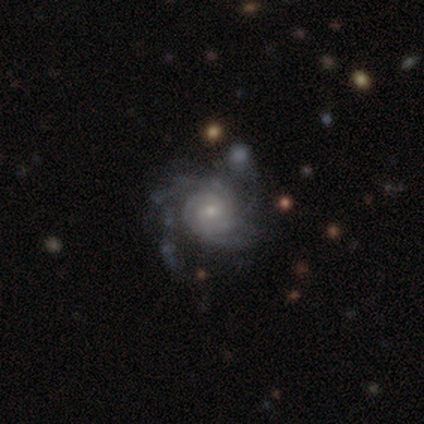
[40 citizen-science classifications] Smooth or featured? 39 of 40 (98%) said featured or disk. Edge-on disk? 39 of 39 (100%) said no. Bar? 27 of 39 (69%) said no. Spiral arms? 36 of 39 (92%) said yes. Spiral winding? 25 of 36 (69%) said tight. Spiral arm count? 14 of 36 (39%) said can't tell. Bulge size? 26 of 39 (67%) said small. Merging? 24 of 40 (60%) said none.